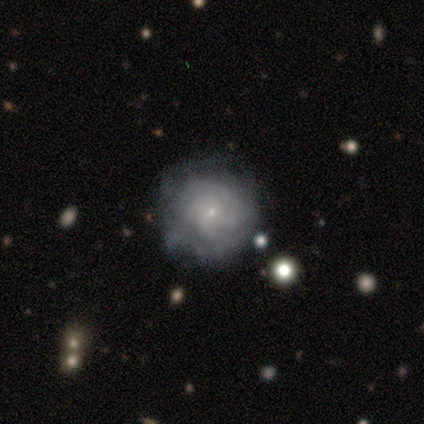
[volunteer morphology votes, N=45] A featured or disk galaxy (89%) with no bar (78%), 3 (37%) tight (60%) spiral arms (88%) and a small central bulge (95%).

Vote fractions:
- Smooth or featured? featured or disk: 89% / smooth: 9% / star or artifact: 2%
- Edge-on disk? no: 100% / yes: 0%
- Bar? no: 78% / weak: 22% / strong: 0%
- Spiral arms? yes: 88% / no: 12%
- Spiral winding? tight: 60% / medium: 37% / loose: 3%
- Spiral arm count? 3: 37% / can't tell: 31% / 4: 20% / 2: 6% / more than 4: 6% / 1: 0%
- Bulge size? small: 95% / moderate: 5% / dominant: 0% / large: 0% / none: 0%
- Merging? none: 59% / minor disturbance: 34% / major disturbance: 5% / merger: 2%